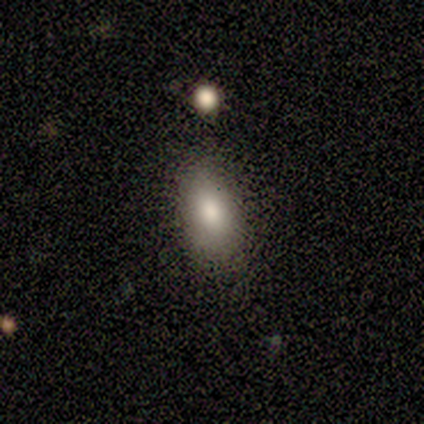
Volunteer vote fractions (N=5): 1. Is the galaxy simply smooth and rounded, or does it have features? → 60% smooth, 40% star or artifact, 0% featured or disk.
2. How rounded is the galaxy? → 100% in between, 0% round, 0% cigar-shaped.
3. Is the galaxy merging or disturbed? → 67% none, 33% minor disturbance, 0% major disturbance, 0% merger.